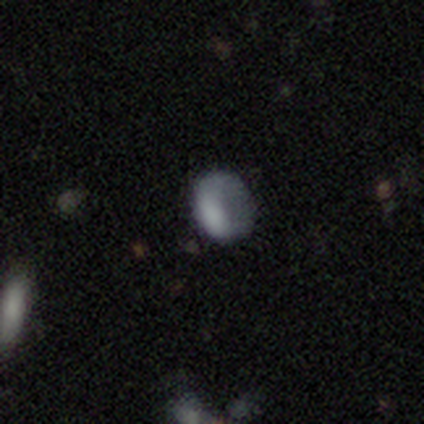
Volunteers were most divided on "smooth or featured" (2-way tie): smooth: 50%, star or artifact: 50%, featured or disk: 0%; "merging" (2-way tie): none: 50%, major disturbance: 50%, minor disturbance: 0%, merger: 0%. More confident: how rounded — round (100%).